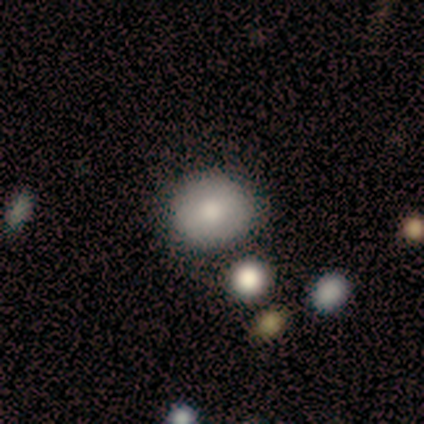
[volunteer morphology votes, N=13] Q: Smooth or featured?
A: smooth (85%); runner-up: featured or disk (15%)
Q: How rounded?
A: round (64%); runner-up: in between (36%)
Q: Merging?
A: none (54%); runner-up: minor disturbance (31%)